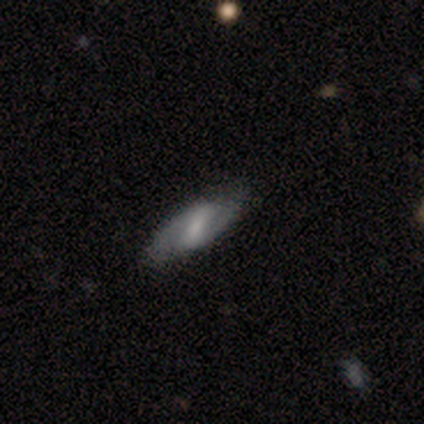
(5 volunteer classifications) Smooth or featured? 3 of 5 (60%) said featured or disk. Edge-on disk? 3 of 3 (100%) said no. Bar? 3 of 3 (100%) said weak. Spiral arms? 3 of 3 (100%) said yes. Spiral winding? 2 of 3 (67%) said medium. Spiral arm count? 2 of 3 (67%) said 2. Bulge size? 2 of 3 (67%) said moderate. Merging? 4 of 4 (100%) said none.